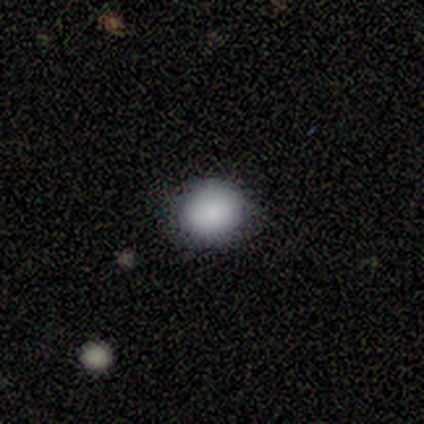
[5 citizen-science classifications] smooth_or_featured: smooth (p=0.80) [alt: star or artifact p=0.20]
how_rounded: round (p=1.00)
merging: none (p=0.50) [tied with: minor disturbance p=0.50]